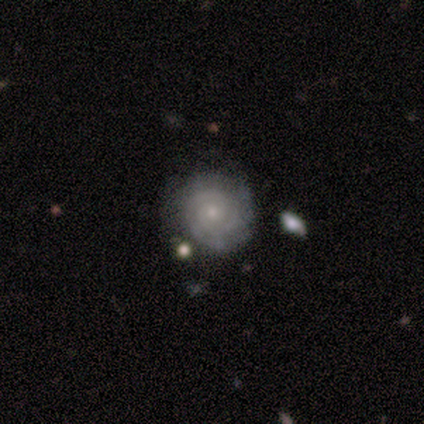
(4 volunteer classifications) Smooth or featured? 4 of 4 (100%) said featured or disk. Edge-on disk? 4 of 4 (100%) said no. Bar? 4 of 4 (100%) said no. Spiral arms? 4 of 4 (100%) said yes. Spiral winding? 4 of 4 (100%) said tight. Spiral arm count? 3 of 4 (75%) said 2. Bulge size? 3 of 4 (75%) said small. Merging? 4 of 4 (100%) said none.